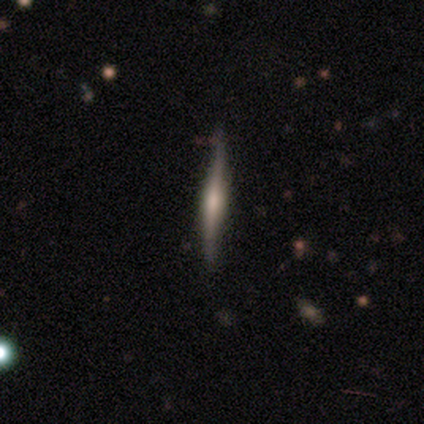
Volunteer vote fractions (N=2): Volunteers were most divided on "smooth or featured" (2-way tie): smooth: 50%, featured or disk: 50%, star or artifact: 0%. More confident: how rounded — cigar-shaped (100%); merging — none (100%).